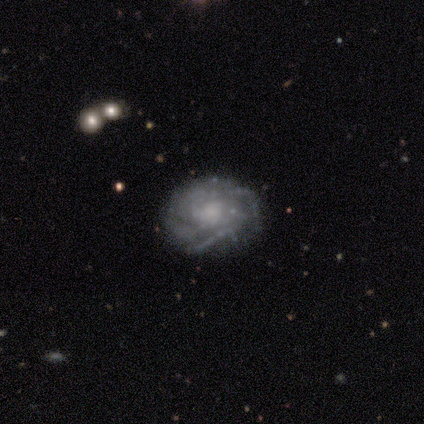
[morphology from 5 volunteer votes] A featured or disk galaxy (80%) with a weak bar (50%, tied with no), 2 (67%) tight (67%) spiral arms (75%) and a moderate central bulge (50%). Merging: none (40%, tied with minor disturbance).